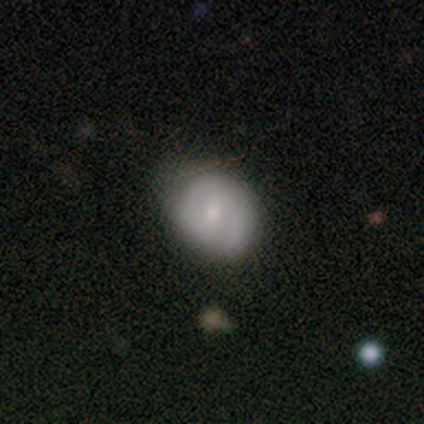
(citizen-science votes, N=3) Q: Smooth or featured?
A: smooth (33%); tied with: featured or disk (33%); star or artifact (33%)
Q: How rounded?
A: round (100%)
Q: Merging?
A: none (50%); tied with: merger (50%)